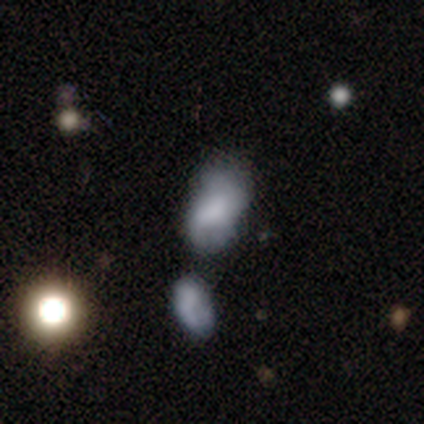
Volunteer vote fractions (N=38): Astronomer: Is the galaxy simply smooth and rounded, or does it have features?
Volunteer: smooth — 58%.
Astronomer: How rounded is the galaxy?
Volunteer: in between — 91%.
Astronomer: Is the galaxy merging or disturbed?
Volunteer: none — 35% (runner-up: minor disturbance, 26%).